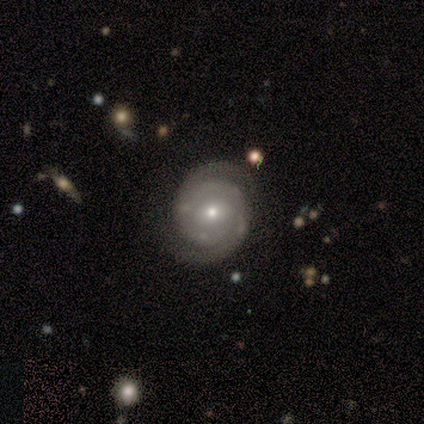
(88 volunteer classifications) A featured or disk galaxy (86%) with no bar (64%), 2 (91%) tight (68%) spiral arms (97%) and a small central bulge (50%).

Vote fractions:
- Smooth or featured? featured or disk: 86% / smooth: 7% / star or artifact: 7%
- Edge-on disk? no: 100% / yes: 0%
- Bar? no: 64% / weak: 30% / strong: 5%
- Spiral arms? yes: 97% / no: 3%
- Spiral winding? tight: 68% / medium: 32% / loose: 0%
- Spiral arm count? 2: 91% / can't tell: 8% / 4: 1% / 1: 0% / 3: 0% / more than 4: 0%
- Bulge size? small: 50% / moderate: 46% / large: 4% / dominant: 0% / none: 0%
- Merging? none: 84% / minor disturbance: 12% / major disturbance: 4% / merger: 0%